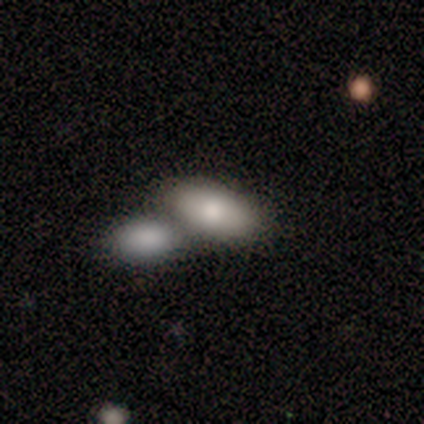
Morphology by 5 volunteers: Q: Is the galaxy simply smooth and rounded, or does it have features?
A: smooth — 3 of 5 (60%).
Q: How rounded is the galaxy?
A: in between — 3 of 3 (100%).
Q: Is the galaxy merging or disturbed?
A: merger — 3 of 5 (60%).